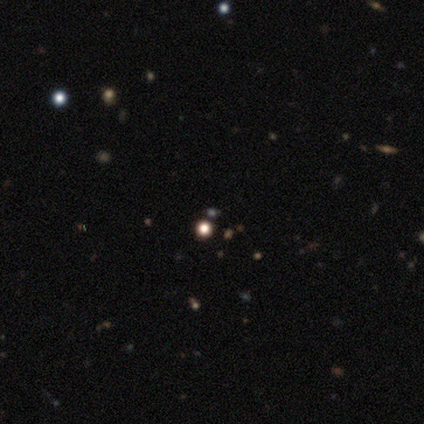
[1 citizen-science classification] Smooth or featured?
  - star or artifact: 100% *
  - smooth: 0%
  - featured or disk: 0%